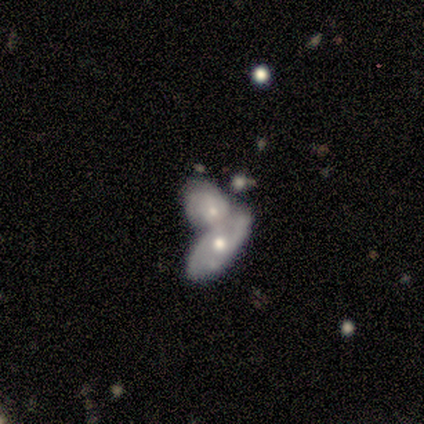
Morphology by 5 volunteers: Overall: featured or disk (60%; smooth 20%). Edge-on disk: no (100%). Bar: no (67%; weak 33%). Spiral arms: yes (100%). Spiral arm count: 2 (67%; can't tell 33%). Spiral winding: medium (67%; loose 33%). Bulge size: moderate (67%; small 33%). Merging: none (50%, tied with merger).